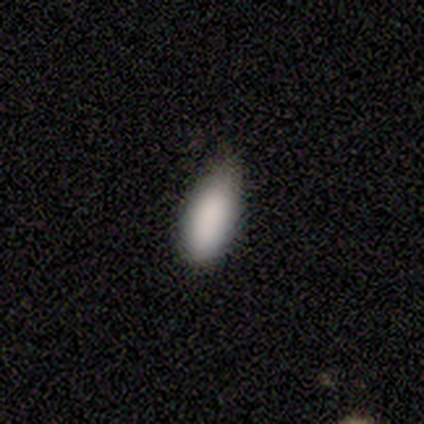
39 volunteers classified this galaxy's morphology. This appears to be a smooth galaxy with no disk features (97%) that is in between round and cigar-shaped (82%). Merging: none (42%).